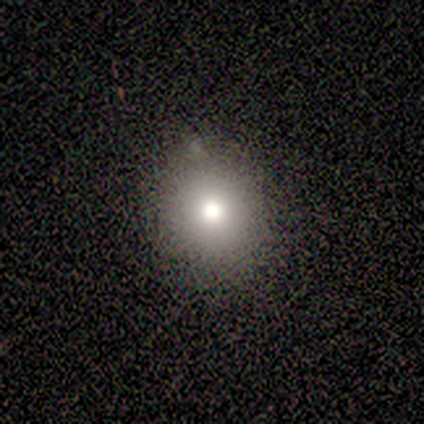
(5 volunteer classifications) Morphology: type=smooth (100%); roundness=round (80%); merging=none (80%).